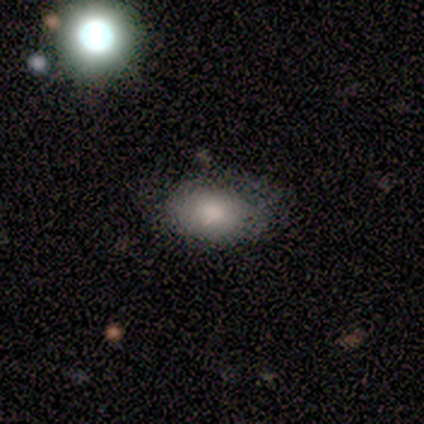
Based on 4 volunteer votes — Overall: smooth (100%). How rounded: in between (100%). Merging: none (75%).